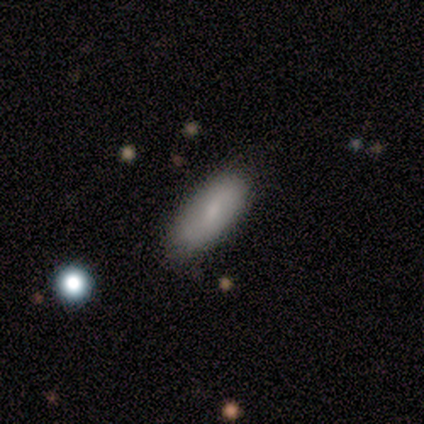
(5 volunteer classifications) smooth-or-featured: featured or disk: 80% | smooth: 20% | star or artifact: 0%
  disk-edge-on: no: 75% | yes: 25%
    bar: weak: 67% | strong: 33% | no: 0%
    has-spiral-arms: yes: 100% | no: 0%
      spiral-winding: tight: 33% (tied) | medium: 33% (tied) | loose: 33% (tied)
      spiral-arm-count: 2: 67% | can't tell: 33% | 1: 0% | 3: 0% | 4: 0% | more than 4: 0%
    bulge-size: moderate: 67% | small: 33% | dominant: 0% | large: 0% | none: 0%
  merging: none: 80% | minor disturbance: 20% | major disturbance: 0% | merger: 0%